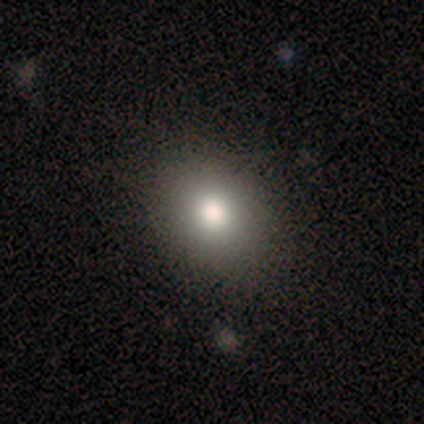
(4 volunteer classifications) Overall: smooth (100%). How rounded: round (50%, tied with in between). Merging: none (100%).